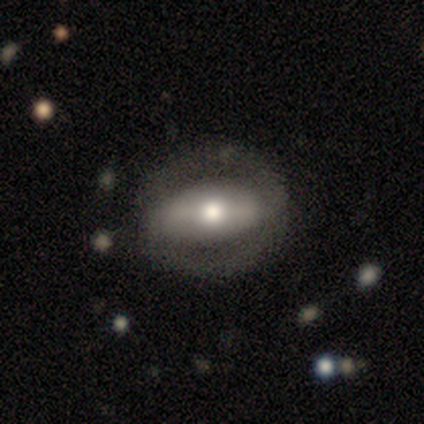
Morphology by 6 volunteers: Smooth or featured: featured or disk — 67% (smooth — 33%)
Edge-on disk: no — 100%
Bar: weak — 50% (strong — 25%)
Spiral arms: no — 75% (yes — 25%)
Bulge size: large — 50% (tied with moderate — 50%)
Merging: none — 67% (minor disturbance — 17%)